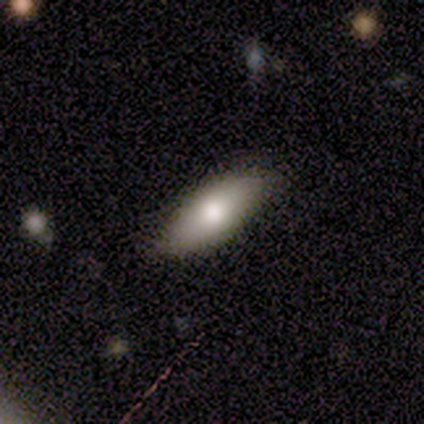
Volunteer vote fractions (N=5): smooth_or_featured: smooth (p=0.40) [tied with: featured or disk p=0.40]
how_rounded: in between (p=1.00)
merging: none (p=0.75) [alt: minor disturbance p=0.25]